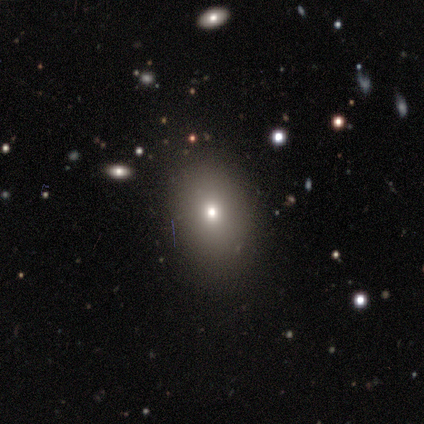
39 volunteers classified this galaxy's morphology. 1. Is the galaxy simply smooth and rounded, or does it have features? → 82% smooth, 13% featured or disk, 5% star or artifact.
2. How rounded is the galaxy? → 72% in between, 28% round, 0% cigar-shaped.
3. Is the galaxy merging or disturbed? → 84% none, 16% minor disturbance, 0% major disturbance, 0% merger.